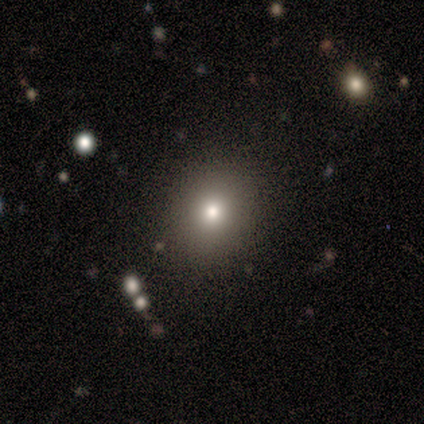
smooth 80%, featured or disk 20%, star or artifact 0%. Down the decision tree: how rounded — round (50%, tied with in between); merging — none (80%).